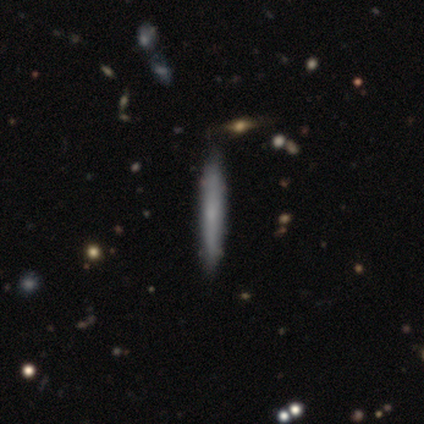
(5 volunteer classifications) Smooth or featured? smooth (60%)
How rounded? cigar-shaped (100%)
Merging? none (80%)